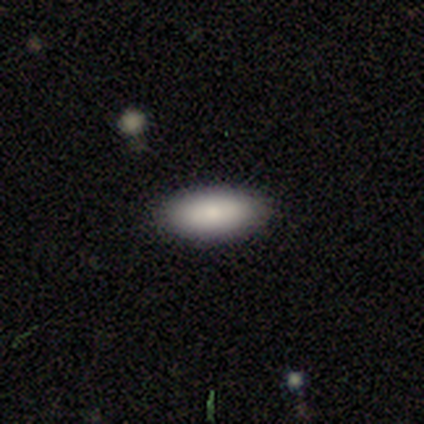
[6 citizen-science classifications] This appears to be a smooth galaxy with no disk features (100%) that is in between round and cigar-shaped (67%). Merging: none (100%).